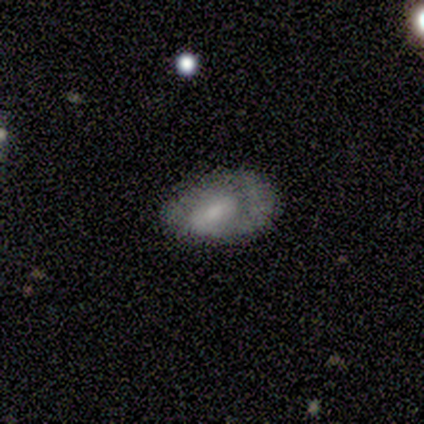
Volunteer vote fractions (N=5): Smooth or featured: smooth — 40% (tied with featured or disk — 40%)
How rounded: round — 50% (tied with in between — 50%)
Merging: none — 75% (minor disturbance — 25%)